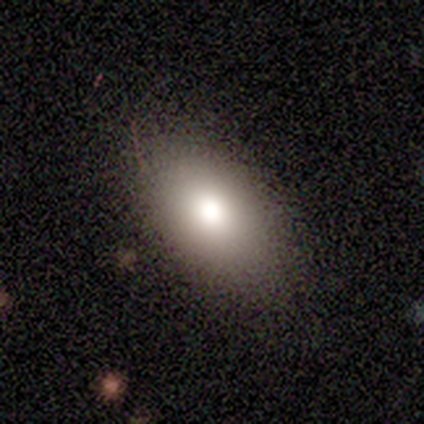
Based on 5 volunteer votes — smooth 100%, featured or disk 0%, star or artifact 0%. Down the decision tree: how rounded — in between (80%); merging — none (100%).